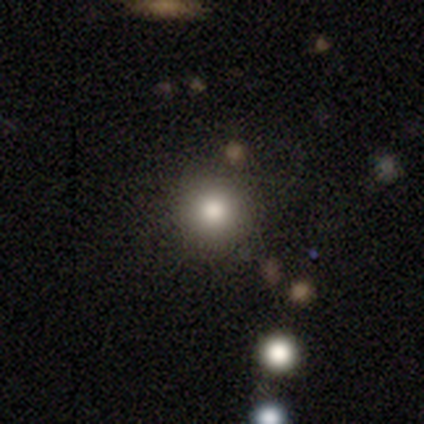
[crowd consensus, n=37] A smooth galaxy with no disk features (73%) that is round (96%). Merging: none (84%).